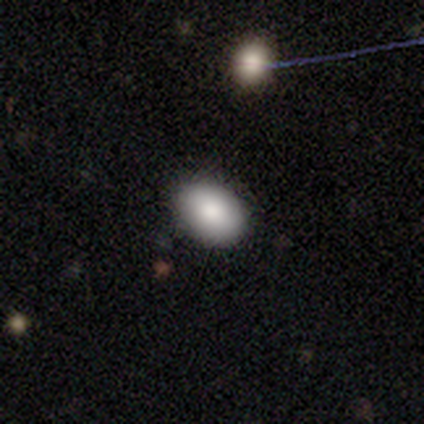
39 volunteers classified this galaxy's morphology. Q: Smooth or featured?
A: smooth (85%); runner-up: featured or disk (8%)
Q: How rounded?
A: in between (94%); runner-up: round (6%)
Q: Merging?
A: none (64%); runner-up: minor disturbance (6%)